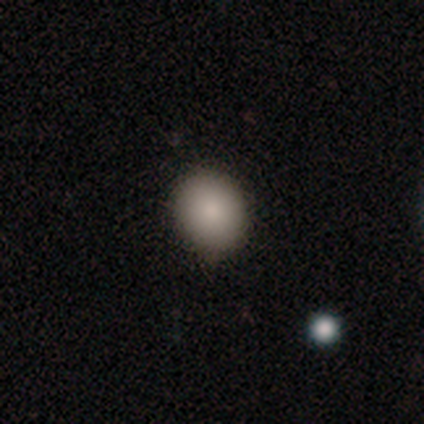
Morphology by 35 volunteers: Smooth or featured: smooth — 89% (featured or disk — 6%)
How rounded: round — 77% (in between — 23%)
Merging: none — 85% (minor disturbance — 15%)